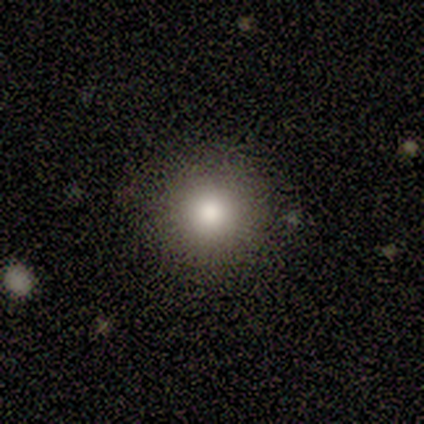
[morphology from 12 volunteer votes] Volunteers were most divided on "smooth or featured": smooth: 92%, star or artifact: 8%, featured or disk: 0%. More confident: how rounded — round (100%); merging — none (100%).